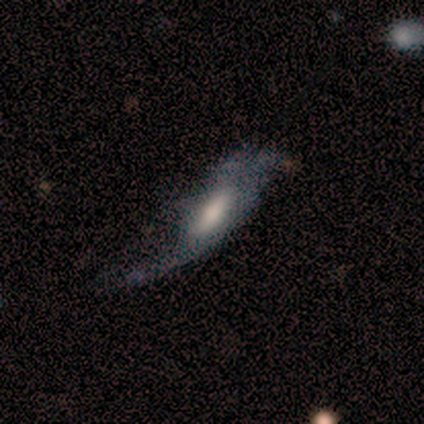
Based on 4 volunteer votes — Overall: smooth (50%, tied with featured or disk). How rounded: in between (50%, tied with cigar-shaped). Merging: major disturbance (50%; minor disturbance 25%).